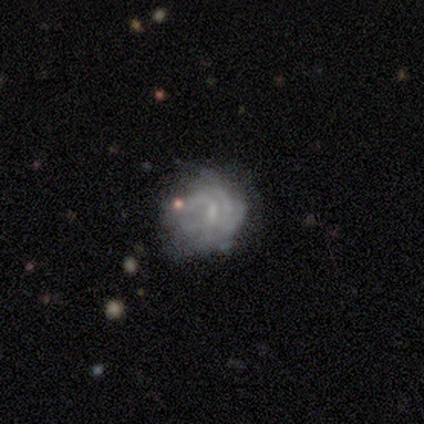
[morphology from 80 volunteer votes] smooth-or-featured: featured or disk: 79% | smooth: 18% | star or artifact: 4%
  disk-edge-on: no: 98% | yes: 2%
    bar: weak: 61% | no: 34% | strong: 5%
    has-spiral-arms: yes: 77% | no: 23%
      spiral-winding: tight: 67% | medium: 29% | loose: 4%
      spiral-arm-count: can't tell: 60% | 3: 15% | 2: 12% | 4: 6% | 1: 4% | more than 4: 2%
    bulge-size: none: 52% | small: 40% | moderate: 8% | dominant: 0% | large: 0%
  merging: none: 40% | minor disturbance: 17% | major disturbance: 9% | merger: 0%